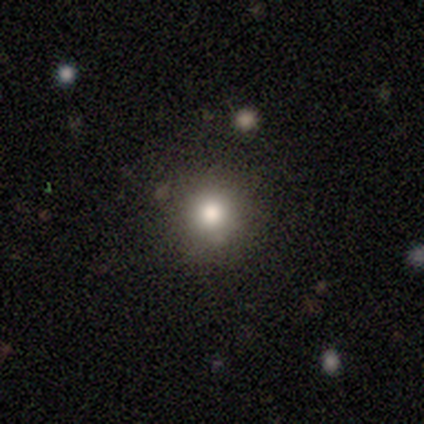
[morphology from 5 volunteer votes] Smooth or featured? 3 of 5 (60%) said smooth. How rounded? 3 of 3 (100%) said round. Merging? 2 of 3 (67%) said none.